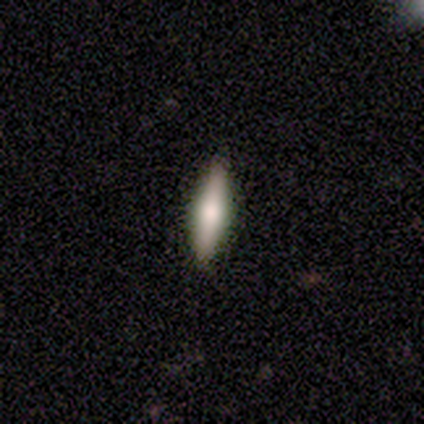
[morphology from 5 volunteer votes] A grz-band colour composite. It shows a smooth galaxy with no disk features (60%) that is cigar-shaped (100%). Merging: none (100%).